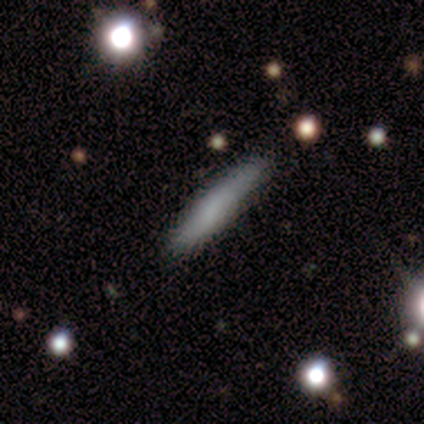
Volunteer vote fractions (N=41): Smooth or featured? smooth (71%)
How rounded? cigar-shaped (93%)
Merging? none (80%)